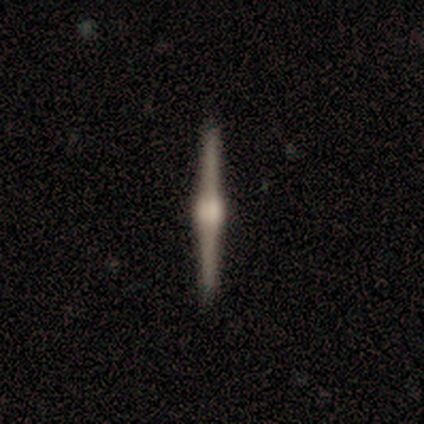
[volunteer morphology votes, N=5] Volunteers were most divided on "smooth or featured": featured or disk: 80%, smooth: 20%, star or artifact: 0%. More confident: edge-on disk — yes (100%); edge-on bulge — rounded (100%); merging — none (80%).